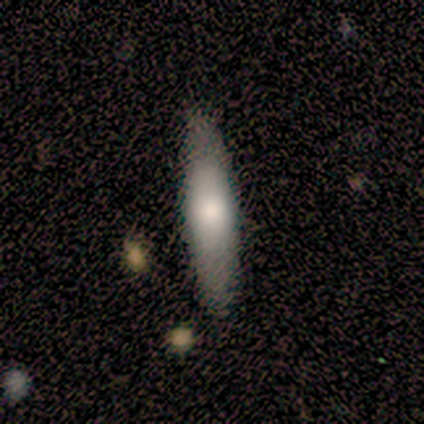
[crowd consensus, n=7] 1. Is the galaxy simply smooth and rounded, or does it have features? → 86% smooth, 14% featured or disk, 0% star or artifact.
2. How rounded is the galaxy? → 100% cigar-shaped, 0% round, 0% in between.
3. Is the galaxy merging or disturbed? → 100% none, 0% minor disturbance, 0% major disturbance, 0% merger.